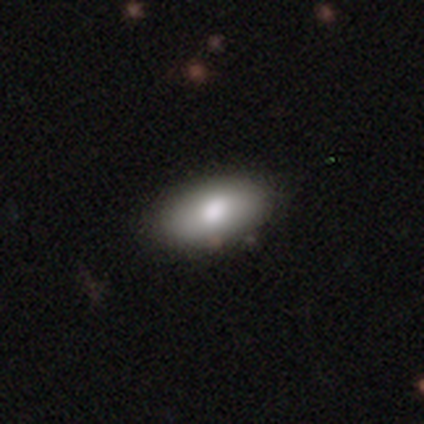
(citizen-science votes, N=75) smooth_or_featured: smooth (p=0.91) [alt: featured or disk p=0.07]
how_rounded: in between (p=0.93) [alt: cigar-shaped p=0.04]
merging: none (p=0.47) [alt: minor disturbance p=0.04]